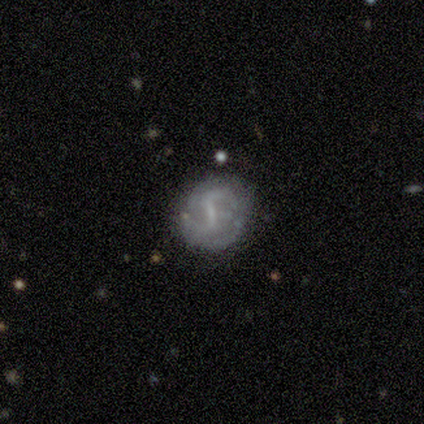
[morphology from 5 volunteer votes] A featured or disk galaxy (60%) with a weak bar (67%), 2 (100%) loose (67%) spiral arms (100%) and no central bulge (67%). Merging: none (80%).